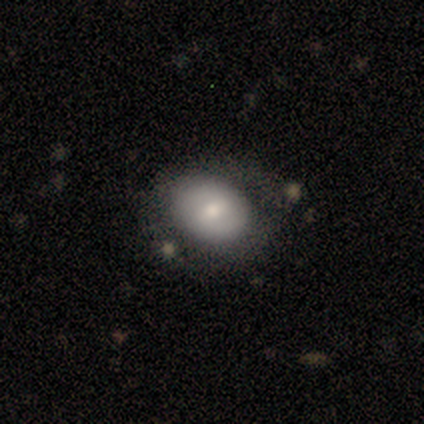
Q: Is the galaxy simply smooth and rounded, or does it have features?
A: smooth — 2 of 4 (50%, tied with featured or disk).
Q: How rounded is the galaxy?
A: in between — 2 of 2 (100%).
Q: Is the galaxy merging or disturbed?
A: none — 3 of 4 (75%).